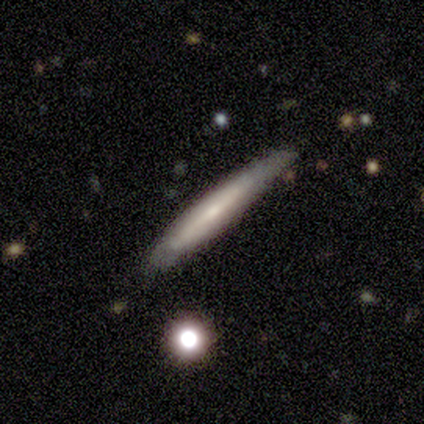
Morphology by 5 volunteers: smooth-or-featured: smooth: 100% | featured or disk: 0% | star or artifact: 0%
  how-rounded: cigar-shaped: 100% | round: 0% | in between: 0%
  merging: none: 80% | minor disturbance: 20% | major disturbance: 0% | merger: 0%